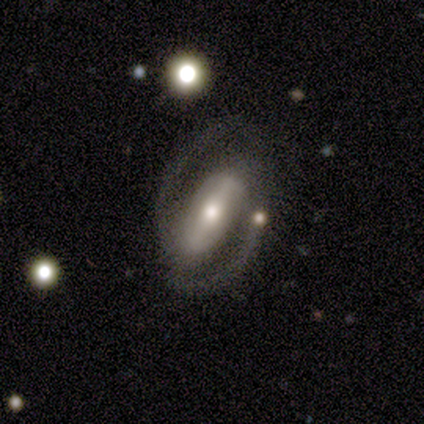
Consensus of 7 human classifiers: Smooth or featured? featured or disk (100%)
Edge-on disk? no (100%)
Bar? strong (86%)
Spiral arms? yes (86%)
Spiral winding? tight (50%)
Spiral arm count? 2 (83%)
Bulge size? moderate (86%)
Merging? none (71%)